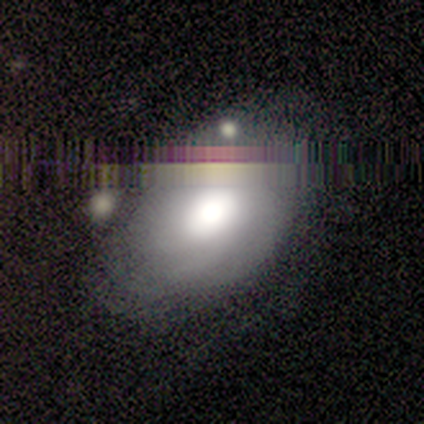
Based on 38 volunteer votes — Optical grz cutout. It shows a featured or disk galaxy (42%) with no bar (100%), no spiral arms (69%) and a large central bulge (54%). Merging: none (48%).